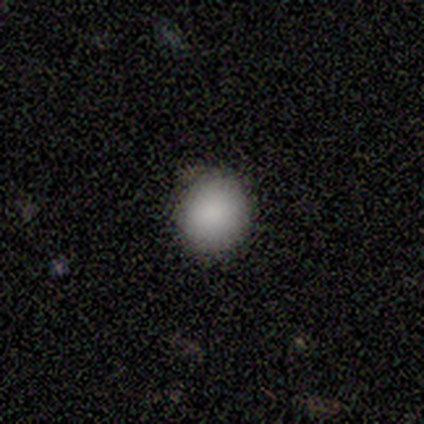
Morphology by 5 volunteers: Smooth or featured?
  - smooth: 100% *
  - featured or disk: 0%
  - star or artifact: 0%
How rounded?
  - round: 80% *
  - in between: 20%
  - cigar-shaped: 0%
Merging?
  - none: 100% *
  - minor disturbance: 0%
  - major disturbance: 0%
  - merger: 0%